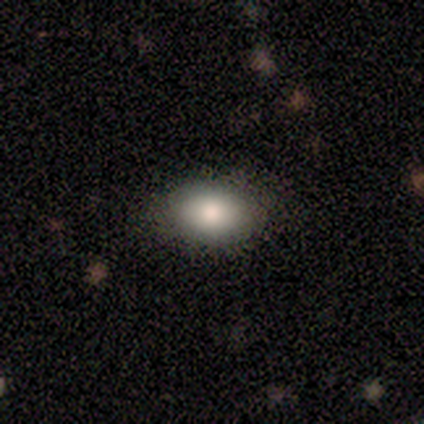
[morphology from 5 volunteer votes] smooth_or_featured: smooth (p=0.60) [alt: featured or disk p=0.20]
how_rounded: in between (p=0.67) [alt: round p=0.33]
merging: none (p=1.00)